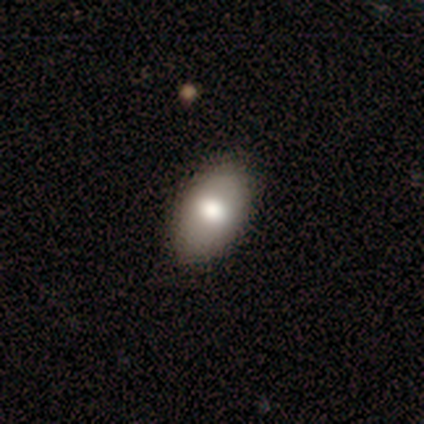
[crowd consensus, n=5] Overall: smooth (80%). How rounded: in between (75%). Merging: none (80%).